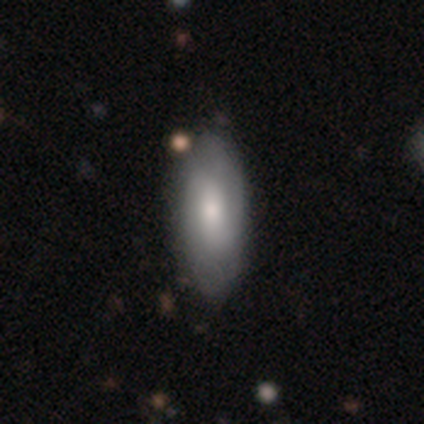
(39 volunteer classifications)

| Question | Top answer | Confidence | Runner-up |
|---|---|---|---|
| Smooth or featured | smooth | 56% | featured or disk (41%) |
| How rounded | in between | 91% | cigar-shaped (9%) |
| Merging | none | 45% | minor disturbance (11%) |